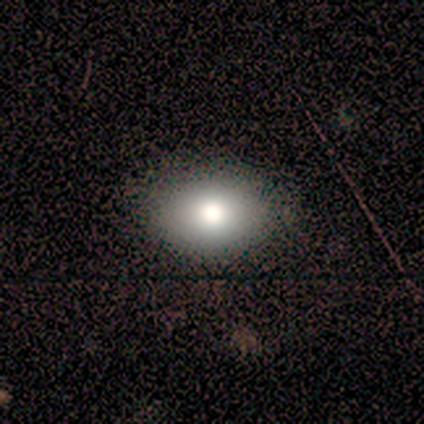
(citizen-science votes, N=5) Smooth or featured?
  - smooth: 80% *
  - featured or disk: 20%
  - star or artifact: 0%
How rounded?
  - round: 50% * (tied)
  - in between: 50% * (tied)
  - cigar-shaped: 0%
Merging?
  - none: 100% *
  - minor disturbance: 0%
  - major disturbance: 0%
  - merger: 0%